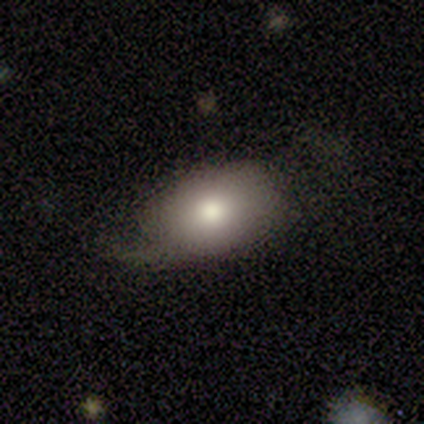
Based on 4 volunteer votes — Morphology: type=smooth (50%, tied with featured or disk); roundness=in between (100%); merging=none (50%, tied with minor disturbance).